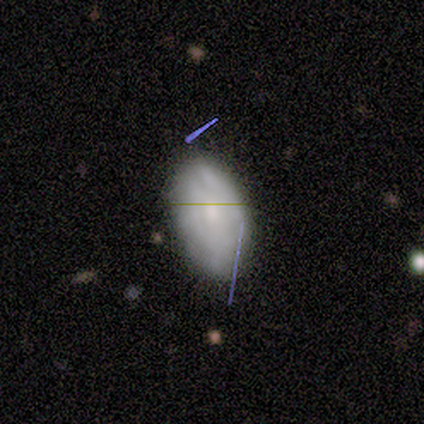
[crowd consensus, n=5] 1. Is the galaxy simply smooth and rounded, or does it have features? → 80% smooth, 20% featured or disk, 0% star or artifact.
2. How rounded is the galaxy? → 100% in between, 0% round, 0% cigar-shaped.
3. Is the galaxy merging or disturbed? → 60% minor disturbance, 20% none, 20% merger, 0% major disturbance.